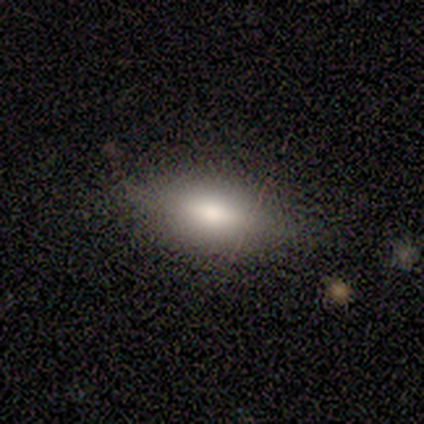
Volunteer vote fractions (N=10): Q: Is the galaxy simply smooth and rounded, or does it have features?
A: smooth — 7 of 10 (70%).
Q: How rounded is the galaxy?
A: in between — 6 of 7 (86%).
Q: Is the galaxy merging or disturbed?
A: none — 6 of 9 (67%).